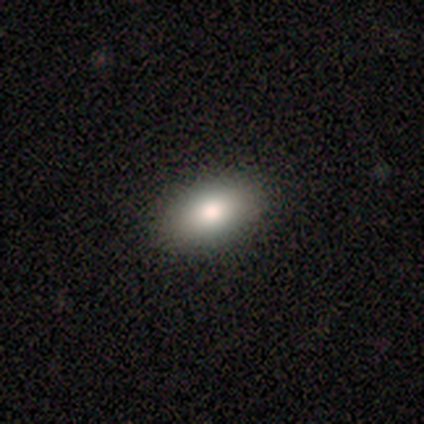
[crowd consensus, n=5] smooth_or_featured: smooth (p=1.00)
how_rounded: in between (p=1.00)
merging: none (p=1.00)